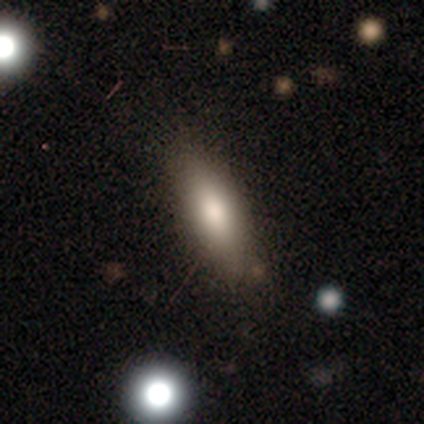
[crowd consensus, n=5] smooth 80%, featured or disk 20%, star or artifact 0%. Down the decision tree: how rounded — in between (100%); merging — none (100%).